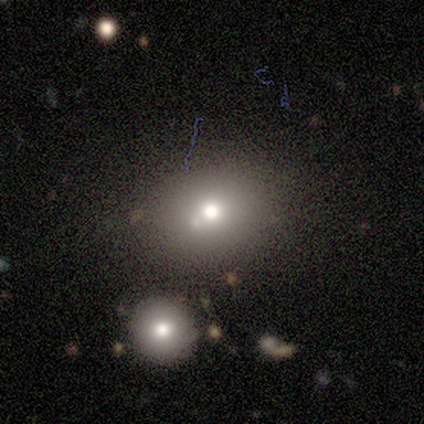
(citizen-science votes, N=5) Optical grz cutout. It shows a smooth galaxy with no disk features (40%, tied with star or artifact) that is round (50%, tied with in between). Merging: none (100%).